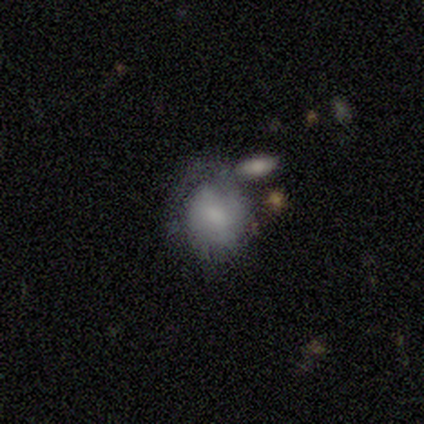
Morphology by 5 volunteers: Volunteers were most divided on "merging" (2-way tie): none: 50%, minor disturbance: 50%, major disturbance: 0%, merger: 0%. More confident: how rounded — in between (67%); smooth or featured — smooth (60%).